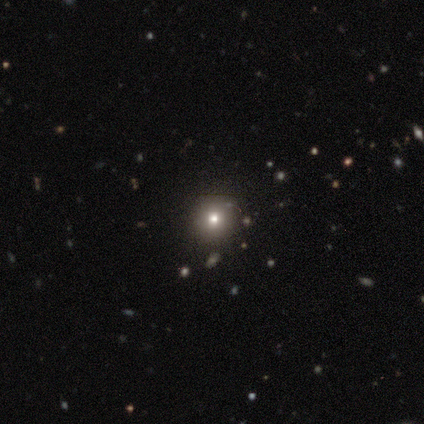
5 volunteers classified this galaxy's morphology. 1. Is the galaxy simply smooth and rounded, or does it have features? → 60% star or artifact, 40% smooth, 0% featured or disk.